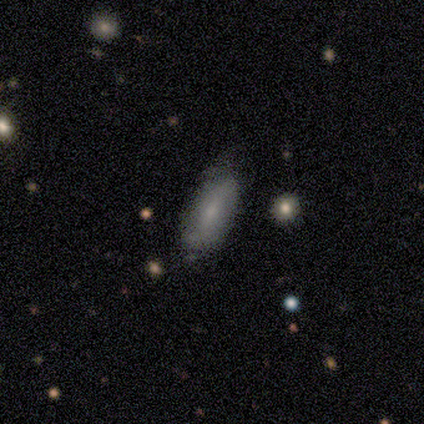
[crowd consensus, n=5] This appears to be a smooth galaxy with no disk features (60%) that is in between round and cigar-shaped (100%). Merging: none (75%).